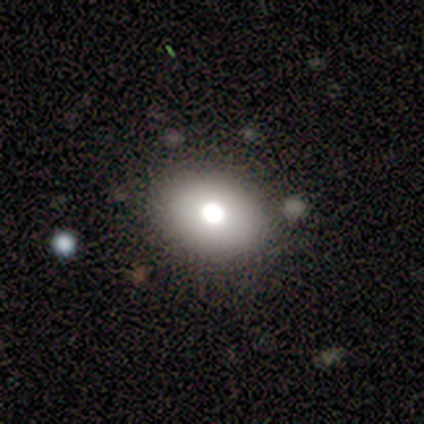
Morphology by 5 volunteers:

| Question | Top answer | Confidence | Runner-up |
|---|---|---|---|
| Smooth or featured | smooth | 60% | featured or disk (20%) |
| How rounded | in between | 100% | — |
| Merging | none | 100% | — |